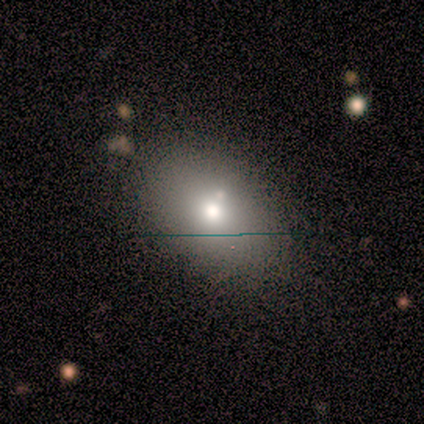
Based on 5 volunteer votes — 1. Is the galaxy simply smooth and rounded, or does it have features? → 80% smooth, 20% featured or disk, 0% star or artifact.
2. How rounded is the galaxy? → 75% in between, 25% round, 0% cigar-shaped.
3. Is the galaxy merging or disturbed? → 100% none, 0% minor disturbance, 0% major disturbance, 0% merger.